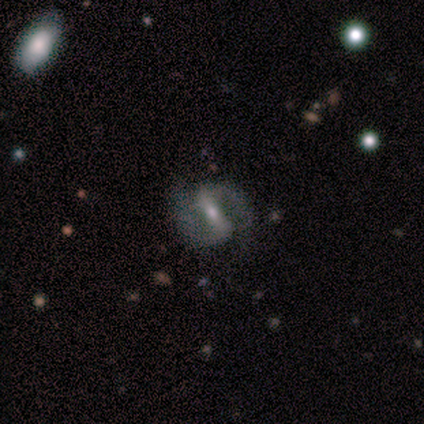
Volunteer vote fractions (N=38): Morphology: type=featured or disk (89%); edge-on=no (97%); bar=strong (64%); spiral arms=yes (94%); winding=medium (77%); arm count=2 (97%); bulge=small (58%); merging=none (76%).